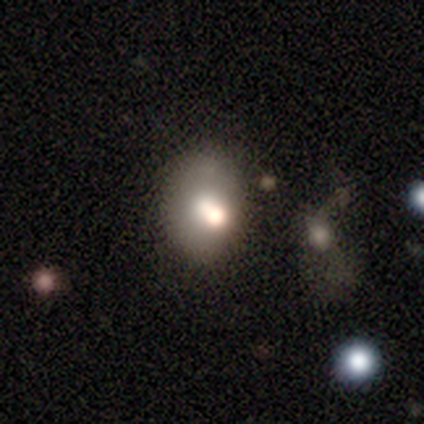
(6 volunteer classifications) A smooth galaxy with no disk features (83%) that is in between round and cigar-shaped (100%).

Vote fractions:
- Smooth or featured? smooth: 83% / star or artifact: 17% / featured or disk: 0%
- How rounded? in between: 100% / round: 0% / cigar-shaped: 0%
- Merging? none: 40% (tied) / major disturbance: 40% (tied) / minor disturbance: 20% / merger: 0%